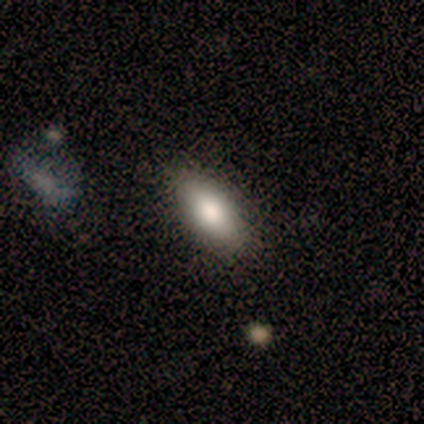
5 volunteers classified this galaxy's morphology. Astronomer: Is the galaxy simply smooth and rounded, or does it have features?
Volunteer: smooth — 80%.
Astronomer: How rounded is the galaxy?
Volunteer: in between — 100%.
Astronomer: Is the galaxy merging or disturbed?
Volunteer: none — 80%.